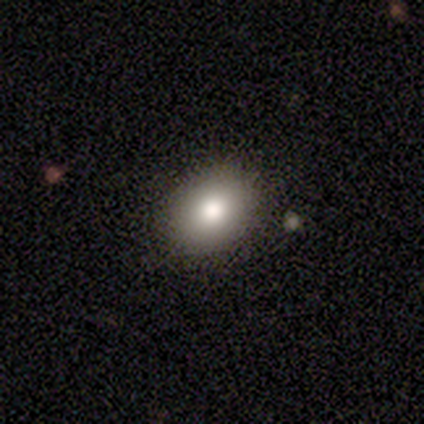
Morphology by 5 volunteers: A smooth galaxy with no disk features (80%) that is round (100%).

Vote fractions:
- Smooth or featured? smooth: 80% / featured or disk: 20% / star or artifact: 0%
- How rounded? round: 100% / in between: 0% / cigar-shaped: 0%
- Merging? none: 100% / minor disturbance: 0% / major disturbance: 0% / merger: 0%